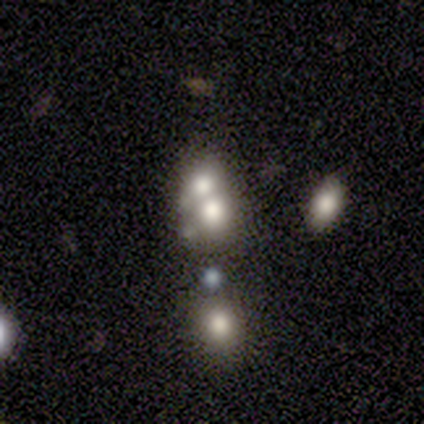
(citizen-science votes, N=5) Smooth or featured? smooth (60%)
How rounded? round (67%)
Merging? merger (50%)